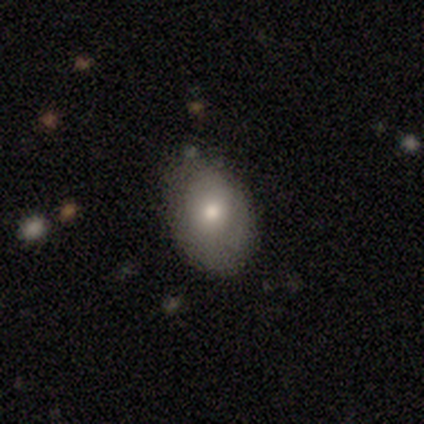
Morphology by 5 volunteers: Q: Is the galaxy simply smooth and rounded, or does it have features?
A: smooth — 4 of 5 (80%).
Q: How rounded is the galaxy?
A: in between — 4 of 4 (100%).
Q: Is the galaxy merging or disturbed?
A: none — 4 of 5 (80%).